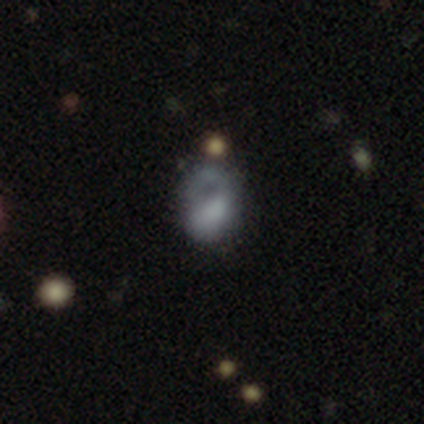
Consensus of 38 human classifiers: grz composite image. It shows a smooth galaxy with no disk features (53%) that is in between round and cigar-shaped (65%). Merging: major disturbance (45%).